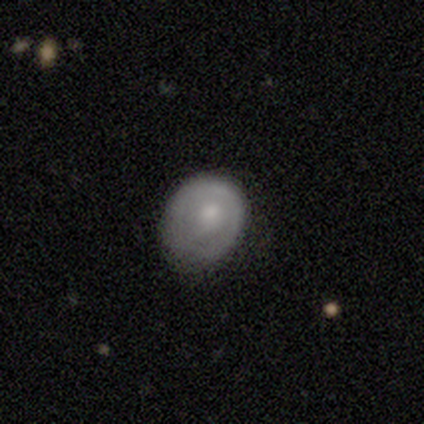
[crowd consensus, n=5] smooth_or_featured: smooth (p=0.80) [alt: featured or disk p=0.20]
how_rounded: round (p=0.75) [alt: in between p=0.25]
merging: none (p=0.60) [alt: minor disturbance p=0.40]